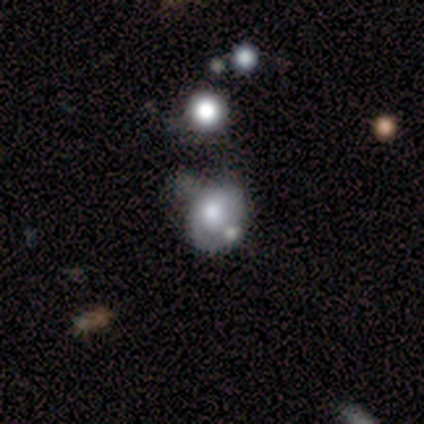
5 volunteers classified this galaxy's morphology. Smooth or featured: smooth — 40% (tied with featured or disk — 40%)
How rounded: round — 50% (tied with in between — 50%)
Merging: minor disturbance — 75% (merger — 25%)